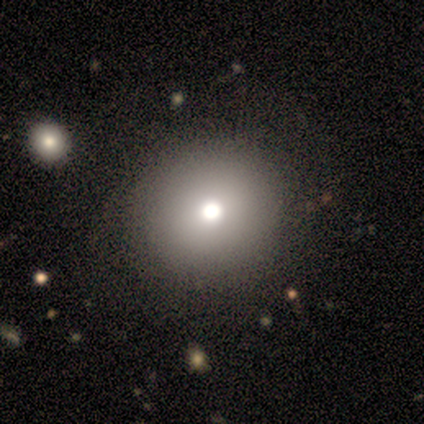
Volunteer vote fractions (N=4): This is clearly a smooth galaxy (100%). How rounded: likely round (75%). Merging: likely none (75%).